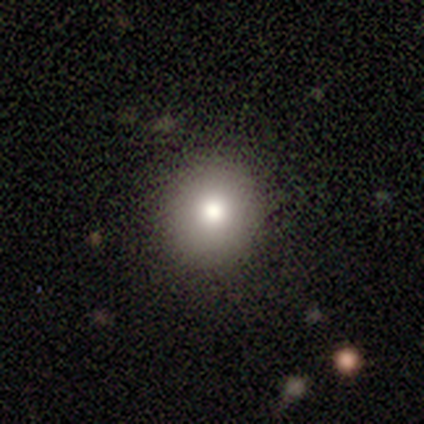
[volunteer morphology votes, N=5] A smooth galaxy with no disk features (40%, tied with star or artifact) that is round (100%).

Vote fractions:
- Smooth or featured? smooth: 40% (tied) / star or artifact: 40% (tied) / featured or disk: 20%
- How rounded? round: 100% / in between: 0% / cigar-shaped: 0%
- Merging? none: 100% / minor disturbance: 0% / major disturbance: 0% / merger: 0%